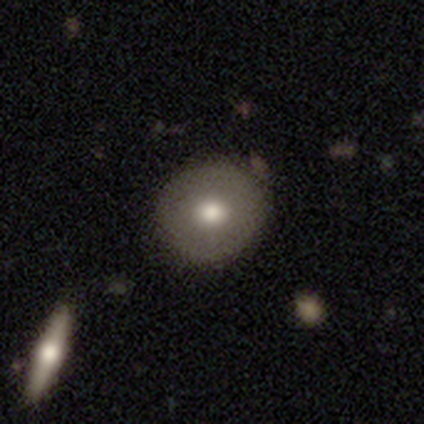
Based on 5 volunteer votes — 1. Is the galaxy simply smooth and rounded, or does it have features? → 80% featured or disk, 20% star or artifact, 0% smooth.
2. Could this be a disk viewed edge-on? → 75% no, 25% yes.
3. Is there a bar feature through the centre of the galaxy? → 67% no, 33% weak, 0% strong.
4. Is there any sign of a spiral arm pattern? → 100% no, 0% yes.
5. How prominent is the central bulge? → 67% moderate, 33% large, 0% dominant, 0% small, 0% none.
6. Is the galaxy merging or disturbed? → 50% none, 25% minor disturbance, 25% merger, 0% major disturbance.